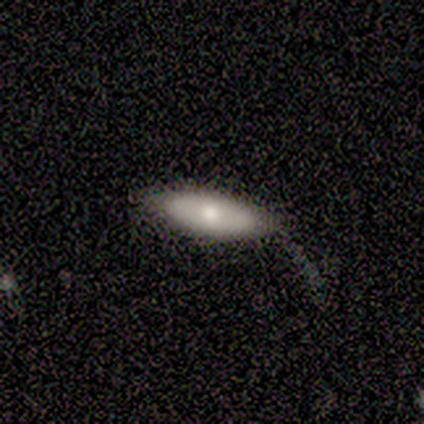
Morphology: type=smooth (60%); roundness=in between (67%); merging=minor disturbance (80%).